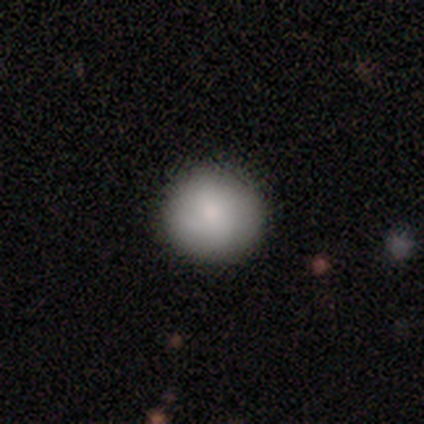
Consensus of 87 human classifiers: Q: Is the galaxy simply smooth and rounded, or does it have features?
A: smooth — 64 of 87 (74%).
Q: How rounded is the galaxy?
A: round — 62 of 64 (97%).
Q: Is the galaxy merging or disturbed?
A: none — 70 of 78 (90%).